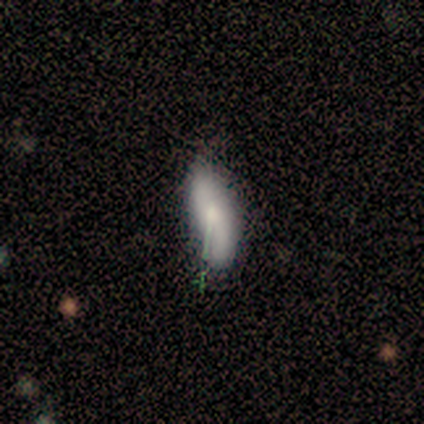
Smooth or featured?
  - smooth: 71% *
  - featured or disk: 14%
  - star or artifact: 14%
How rounded?
  - in between: 40% * (tied)
  - cigar-shaped: 40% * (tied)
  - round: 20%
Merging?
  - none: 67% *
  - minor disturbance: 33%
  - major disturbance: 0%
  - merger: 0%